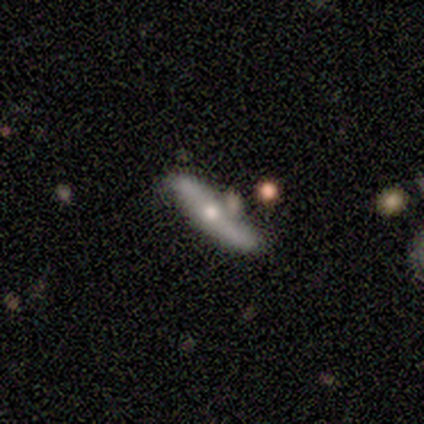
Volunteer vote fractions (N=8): smooth-or-featured: featured or disk: 88% | smooth: 12% | star or artifact: 0%
  disk-edge-on: no: 57% | yes: 43%
    bar: no: 100% | strong: 0% | weak: 0%
    has-spiral-arms: yes: 75% | no: 25%
      spiral-winding: loose: 100% | tight: 0% | medium: 0%
      spiral-arm-count: 2: 100% | 1: 0% | 3: 0% | 4: 0% | more than 4: 0% | can't tell: 0%
    bulge-size: small: 75% | moderate: 25% | dominant: 0% | large: 0% | none: 0%
  merging: none: 88% | minor disturbance: 12% | major disturbance: 0% | merger: 0%